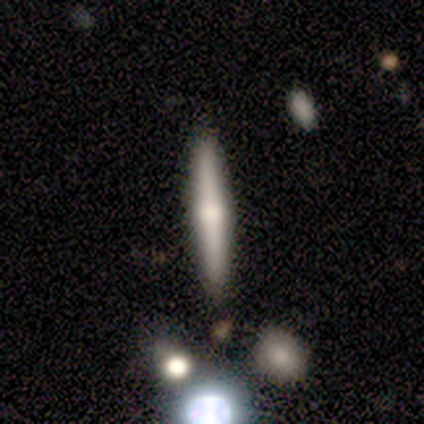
This is possibly a featured or disk galaxy (52%). It is clearly viewed edge-on (100%). Edge-on bulge: clearly rounded (82%). Merging: clearly none (100%).